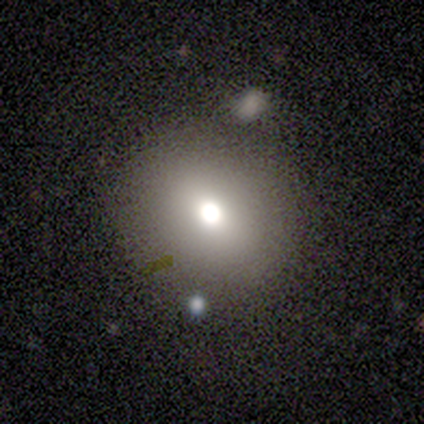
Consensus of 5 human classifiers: Smooth or featured: smooth — 40% (tied with featured or disk — 40%)
How rounded: round — 100%
Merging: merger — 50% (none — 25%)